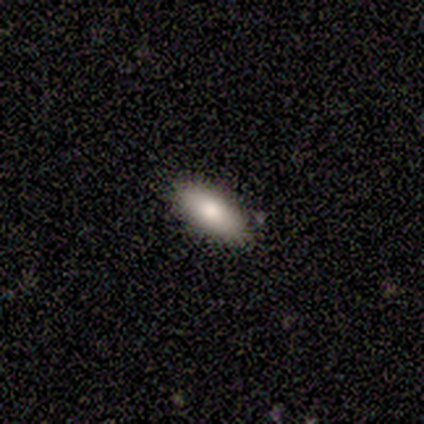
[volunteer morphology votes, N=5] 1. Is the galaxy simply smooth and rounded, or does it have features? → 60% smooth, 40% featured or disk, 0% star or artifact.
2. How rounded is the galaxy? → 67% in between, 33% cigar-shaped, 0% round.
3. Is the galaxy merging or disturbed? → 80% none, 20% major disturbance, 0% minor disturbance, 0% merger.